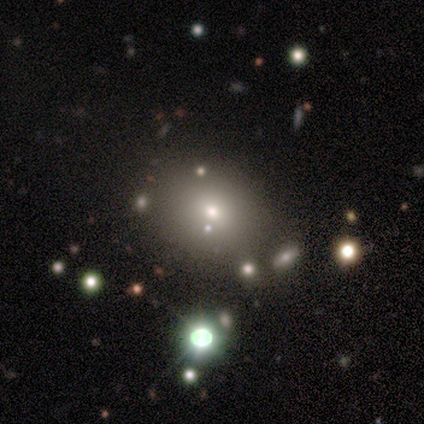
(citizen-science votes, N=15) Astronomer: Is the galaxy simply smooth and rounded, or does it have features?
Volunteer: smooth — 60%.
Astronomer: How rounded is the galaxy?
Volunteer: round — 67%.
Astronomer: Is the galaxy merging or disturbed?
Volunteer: none — 75%.